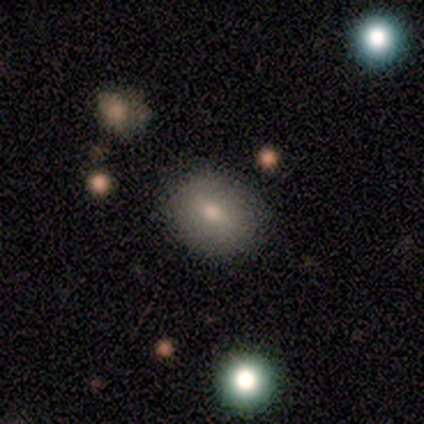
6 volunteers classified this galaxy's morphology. This appears to be a smooth galaxy with no disk features (100%) that is round (83%). Merging: none (100%).